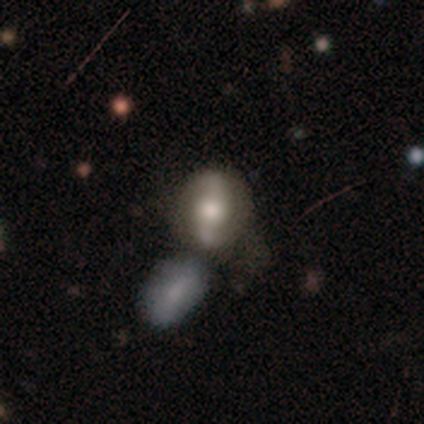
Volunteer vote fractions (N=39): Smooth or featured?
  - featured or disk: 59% *
  - smooth: 41%
  - star or artifact: 0%
Edge-on disk?
  - no: 83% *
  - yes: 17%
Bar?
  - strong: 42% *
  - no: 37%
  - weak: 21%
Spiral arms?
  - yes: 84% *
  - no: 16%
Spiral winding?
  - loose: 75% *
  - medium: 25%
  - tight: 0%
Spiral arm count?
  - 2: 100% *
  - 1: 0%
  - 3: 0%
  - 4: 0%
  - more than 4: 0%
  - can't tell: 0%
Bulge size?
  - moderate: 58% *
  - large: 26%
  - small: 16%
  - dominant: 0%
  - none: 0%
Merging?
  - merger: 44% *
  - none: 33%
  - minor disturbance: 18%
  - major disturbance: 5%